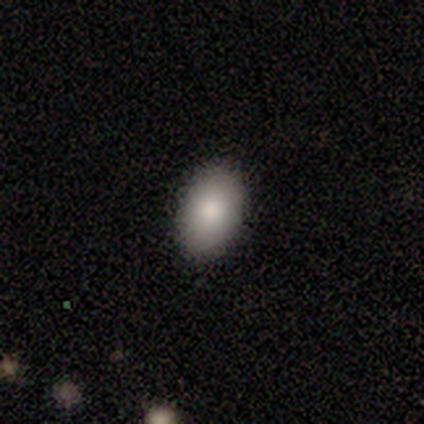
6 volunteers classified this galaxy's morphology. Volunteers were most divided on "merging": none: 67%, minor disturbance: 33%, major disturbance: 0%, merger: 0%. More confident: how rounded — in between (100%); smooth or featured — smooth (83%).